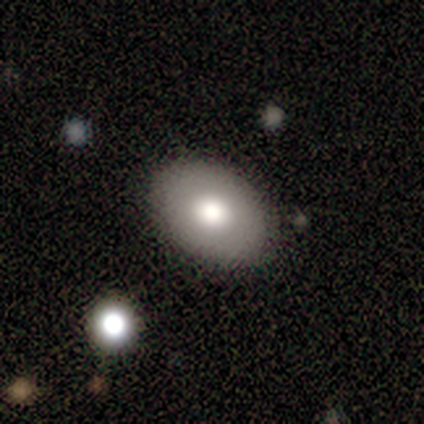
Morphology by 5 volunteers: type=smooth (60%); roundness=in between (100%); merging=none (100%).